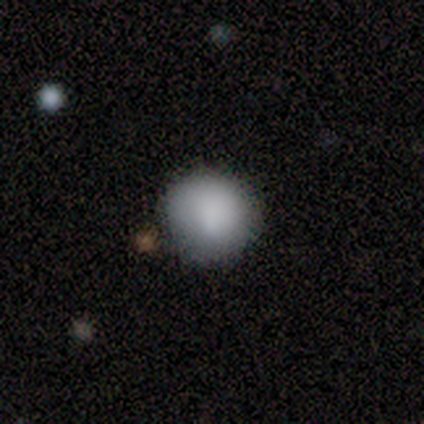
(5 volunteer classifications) Morphology: type=smooth (60%); roundness=round (100%); merging=none (75%).